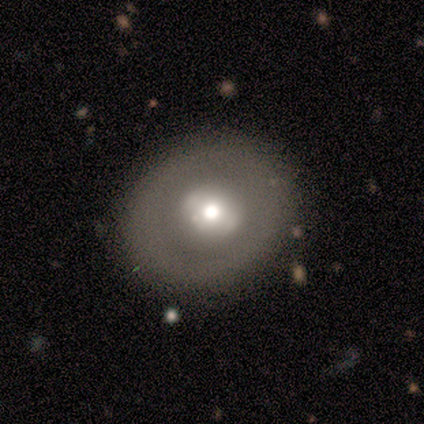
A smooth galaxy with no disk features (80%) that is round (75%).

Vote fractions:
- Smooth or featured? smooth: 80% / featured or disk: 20% / star or artifact: 0%
- How rounded? round: 75% / in between: 25% / cigar-shaped: 0%
- Merging? none: 100% / minor disturbance: 0% / major disturbance: 0% / merger: 0%